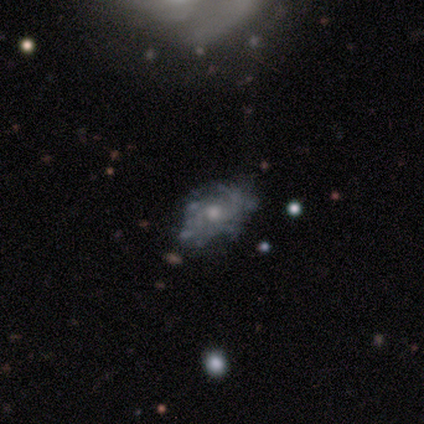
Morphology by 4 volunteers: Smooth or featured? 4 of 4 (100%) said featured or disk. Edge-on disk? 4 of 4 (100%) said no. Bar? 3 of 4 (75%) said no. Spiral arms? 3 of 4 (75%) said yes. Spiral winding? 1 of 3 (33%, tied with medium and loose) said tight. Spiral arm count? 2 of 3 (67%) said 2. Bulge size? 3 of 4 (75%) said moderate. Merging? 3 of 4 (75%) said none.